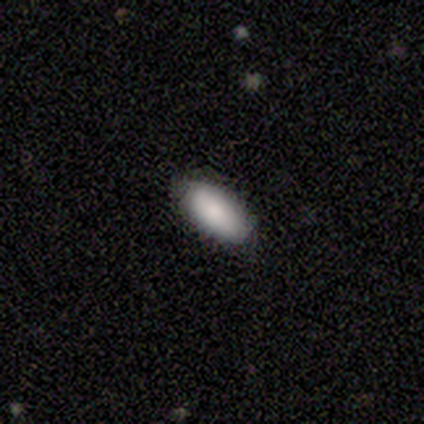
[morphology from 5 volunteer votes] This appears to be a smooth galaxy with no disk features (80%) that is in between round and cigar-shaped (75%). Merging: none (100%).